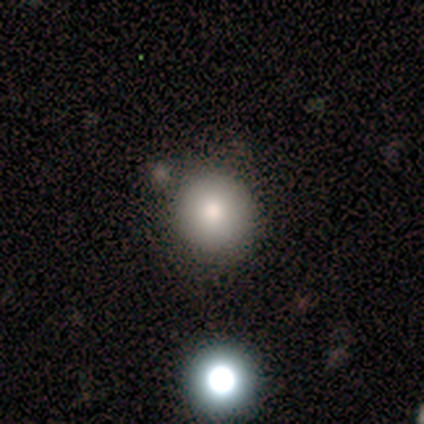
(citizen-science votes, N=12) Smooth or featured?
  - smooth: 100% *
  - featured or disk: 0%
  - star or artifact: 0%
How rounded?
  - round: 92% *
  - in between: 8%
  - cigar-shaped: 0%
Merging?
  - none: 83% *
  - minor disturbance: 8%
  - merger: 8%
  - major disturbance: 0%